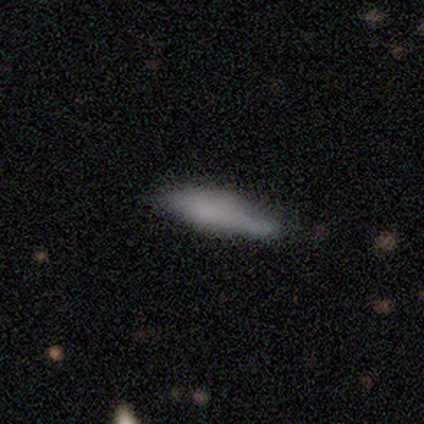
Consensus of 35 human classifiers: Volunteers were most divided on "how rounded": cigar-shaped: 52%, in between: 48%, round: 0%. Remaining: smooth or featured — smooth (66%); merging — none (36%).